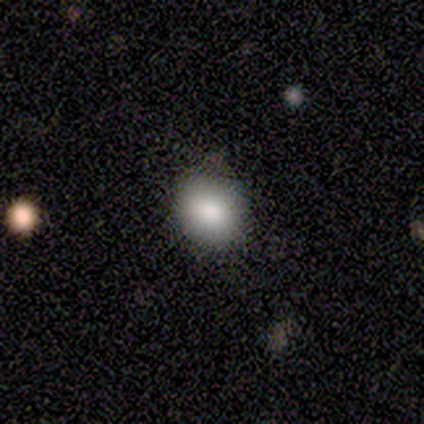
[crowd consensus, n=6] Smooth or featured: smooth — 67% (featured or disk — 17%)
How rounded: round — 50% (tied with in between — 50%)
Merging: none — 100%